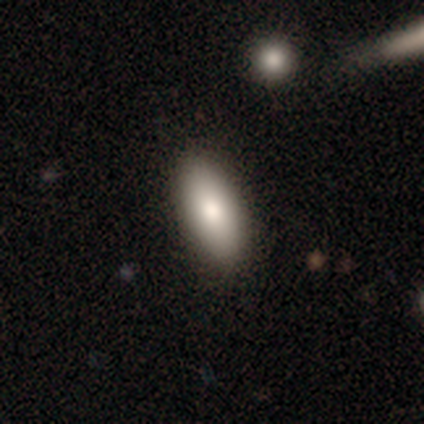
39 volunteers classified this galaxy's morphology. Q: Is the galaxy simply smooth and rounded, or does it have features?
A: smooth — 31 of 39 (79%).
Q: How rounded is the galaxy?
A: in between — 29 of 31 (94%).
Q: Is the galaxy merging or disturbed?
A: none — 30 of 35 (86%).